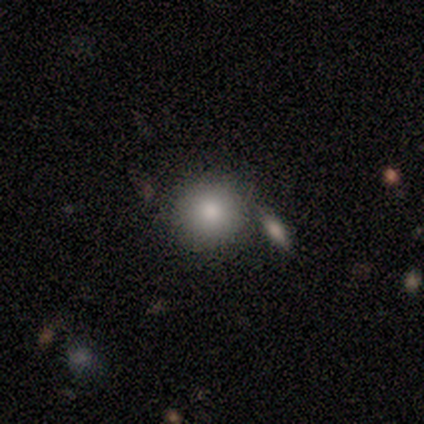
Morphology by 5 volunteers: Smooth or featured: smooth — 100%
How rounded: round — 100%
Merging: none — 80% (merger — 20%)